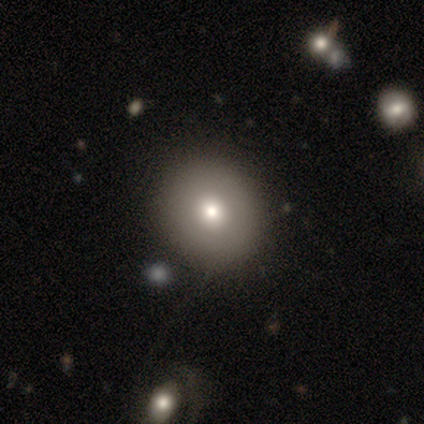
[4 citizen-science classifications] smooth-or-featured: smooth: 75% | featured or disk: 25% | star or artifact: 0%
  how-rounded: round: 100% | in between: 0% | cigar-shaped: 0%
  merging: none: 100% | minor disturbance: 0% | major disturbance: 0% | merger: 0%